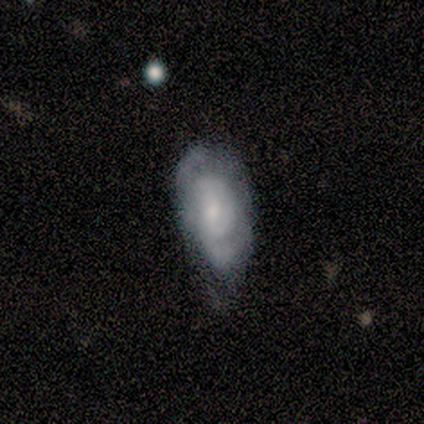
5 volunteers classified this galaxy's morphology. featured or disk 80%, star or artifact 20%, smooth 0%. Down the decision tree: edge-on disk — no (100%); bar — no (75%); spiral arms — yes (100%); spiral arm count — can't tell (75%); spiral winding — tight (100%); bulge size — small (75%); merging — none (50%, tied with major disturbance).